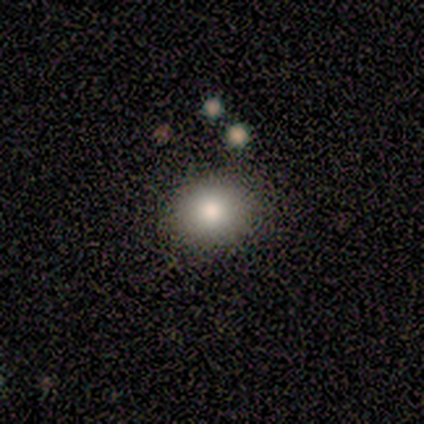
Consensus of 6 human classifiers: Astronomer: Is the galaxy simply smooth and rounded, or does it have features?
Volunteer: smooth — 83%.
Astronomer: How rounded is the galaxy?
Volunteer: round — 60% (runner-up: in between, 40%).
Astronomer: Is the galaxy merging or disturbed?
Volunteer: none — 80%.